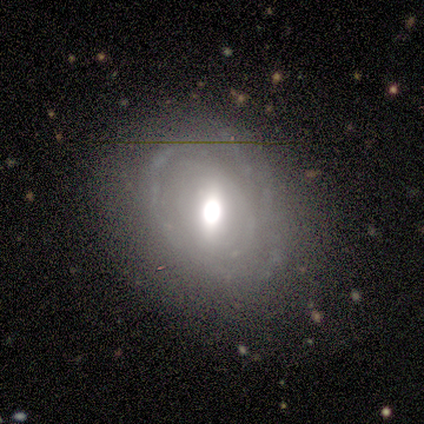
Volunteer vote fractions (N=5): Smooth or featured: featured or disk — 100%
Edge-on disk: no — 100%
Bar: weak — 60% (no — 40%)
Spiral arms: yes — 60% (no — 40%)
Spiral winding: loose — 100%
Spiral arm count: 2 — 67% (can't tell — 33%)
Bulge size: large — 40% (tied with moderate — 40%)
Merging: none — 60% (minor disturbance — 20%)